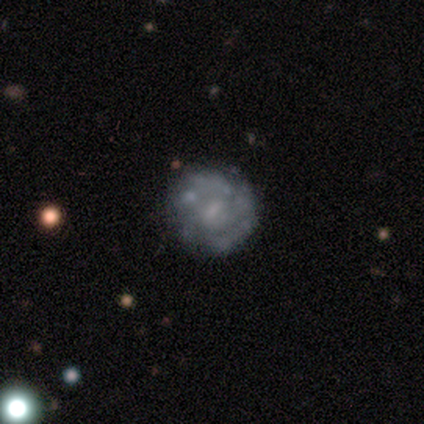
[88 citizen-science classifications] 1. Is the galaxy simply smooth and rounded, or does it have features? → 75% featured or disk, 19% smooth, 6% star or artifact.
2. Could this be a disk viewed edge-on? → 95% no, 5% yes.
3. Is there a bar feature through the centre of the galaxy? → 51% weak, 44% no, 5% strong.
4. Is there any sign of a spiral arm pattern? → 54% yes, 46% no.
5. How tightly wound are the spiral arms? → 74% tight, 21% medium, 6% loose.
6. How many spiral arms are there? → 50% can't tell, 21% 2, 12% 4, 9% more than 4, 6% 1, 3% 3.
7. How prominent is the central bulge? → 46% small, 32% none, 21% moderate, 2% dominant, 0% large.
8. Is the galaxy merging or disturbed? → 81% none, 12% minor disturbance, 7% major disturbance, 0% merger.